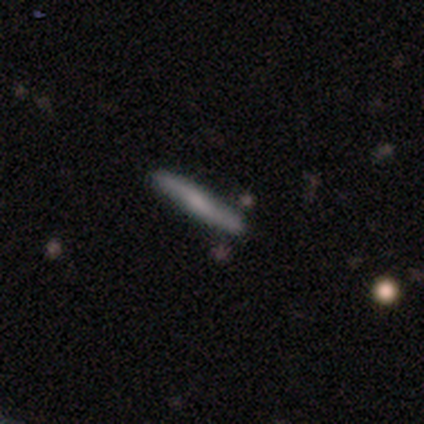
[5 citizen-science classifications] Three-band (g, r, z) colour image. It shows a featured or disk galaxy (60%) viewed edge-on (67%) with a rounded central bulge (100%). Merging: none (80%).